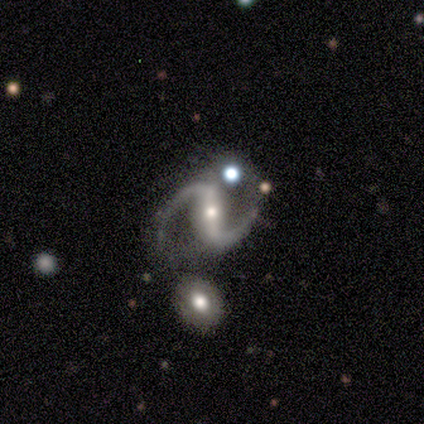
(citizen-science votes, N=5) A featured or disk galaxy (80%) with a strong bar (50%), 2 (100%) loose (75%) spiral arms (100%) and a small central bulge (75%). Merging: none (75%).